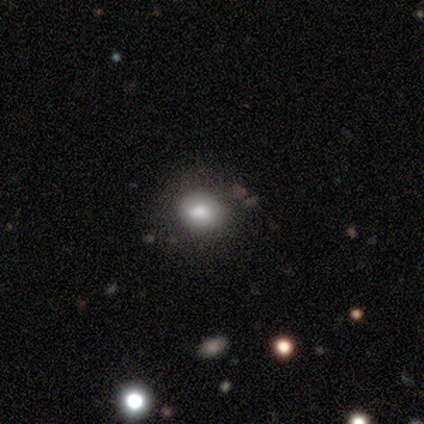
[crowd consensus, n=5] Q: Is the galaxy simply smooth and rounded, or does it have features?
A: smooth — 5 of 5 (100%).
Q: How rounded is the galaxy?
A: round — 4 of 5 (80%).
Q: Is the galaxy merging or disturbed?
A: none — 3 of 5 (60%).